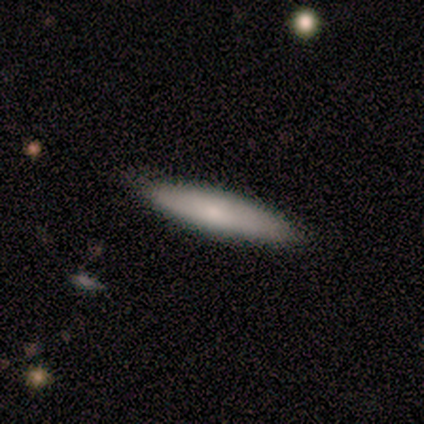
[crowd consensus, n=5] smooth-or-featured: smooth: 60% | featured or disk: 20% | star or artifact: 20%
  how-rounded: cigar-shaped: 67% | in between: 33% | round: 0%
  merging: none: 100% | minor disturbance: 0% | major disturbance: 0% | merger: 0%